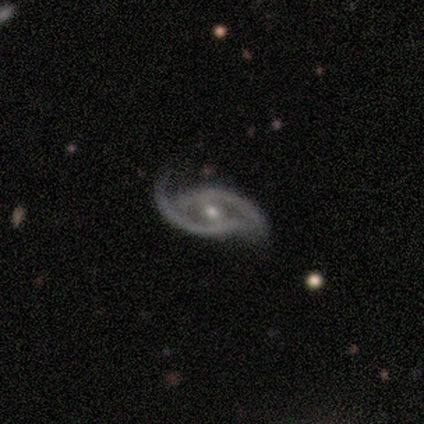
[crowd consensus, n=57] smooth-or-featured: featured or disk: 93% | smooth: 5% | star or artifact: 2%
  disk-edge-on: no: 100% | yes: 0%
    bar: weak: 53% | no: 36% | strong: 11%
    has-spiral-arms: yes: 85% | no: 15%
      spiral-winding: loose: 44% | medium: 42% | tight: 13%
      spiral-arm-count: 2: 93% | can't tell: 7% | 1: 0% | 3: 0% | 4: 0% | more than 4: 0%
    bulge-size: moderate: 64% | small: 36% | dominant: 0% | large: 0% | none: 0%
  merging: none: 38% | minor disturbance: 36% | major disturbance: 25% | merger: 2%